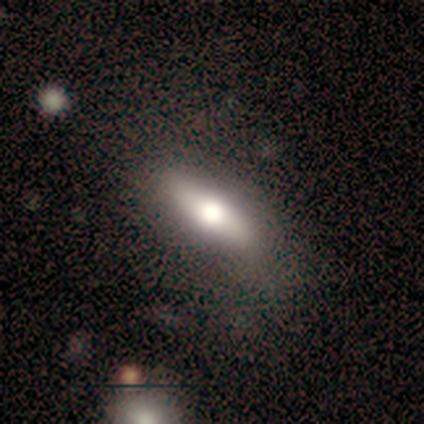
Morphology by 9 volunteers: Overall: smooth (67%). How rounded: in between (50%, tied with cigar-shaped). Merging: none (88%).